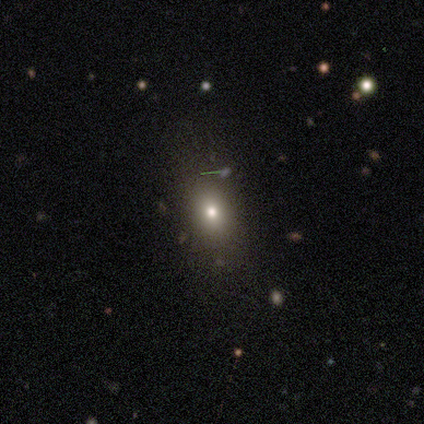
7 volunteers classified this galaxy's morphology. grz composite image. It shows a smooth galaxy with no disk features (57%) that is in between round and cigar-shaped (100%). Merging: none (60%).